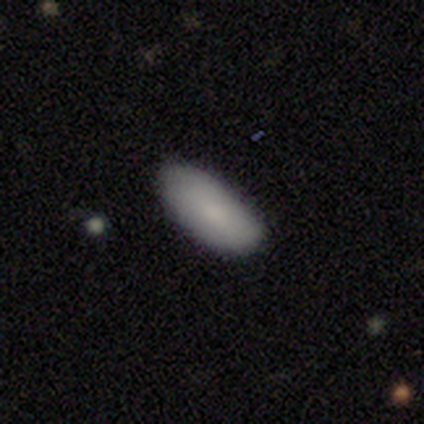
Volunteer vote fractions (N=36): This is clearly a smooth galaxy (92%). How rounded: clearly in between (88%). Merging: clearly none (80%).